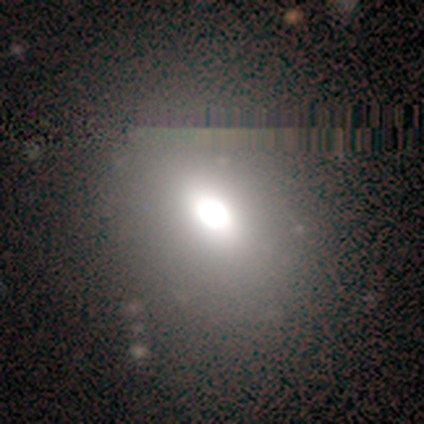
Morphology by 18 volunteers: Smooth or featured: smooth — 56% (star or artifact — 33%)
How rounded: in between — 80% (round — 20%)
Merging: none — 75% (minor disturbance — 8%)